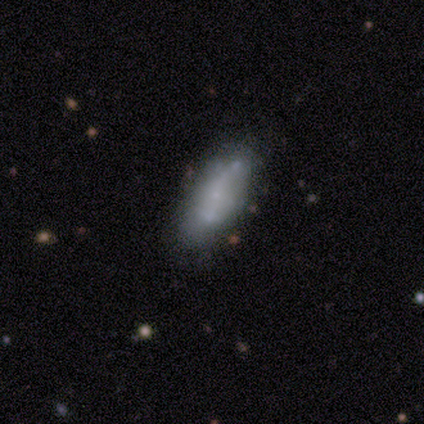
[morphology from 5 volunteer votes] This appears to be a smooth galaxy with no disk features (100%) that is in between round and cigar-shaped (80%). Merging: none (100%).